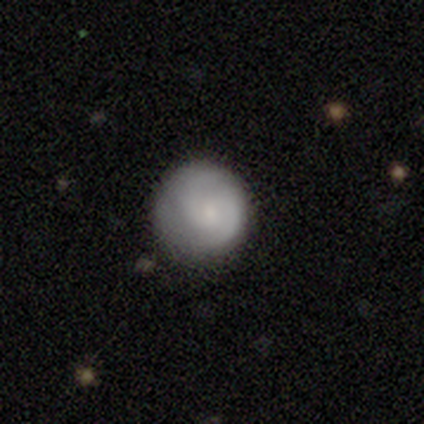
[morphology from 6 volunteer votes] Overall: featured or disk (67%; smooth 33%). Edge-on disk: no (100%). Bar: weak (50%, tied with no). Spiral arms: yes (75%). Spiral arm count: 2 (67%; can't tell 33%). Spiral winding: medium (67%; loose 33%). Bulge size: small (50%; moderate 25%). Merging: none (83%).